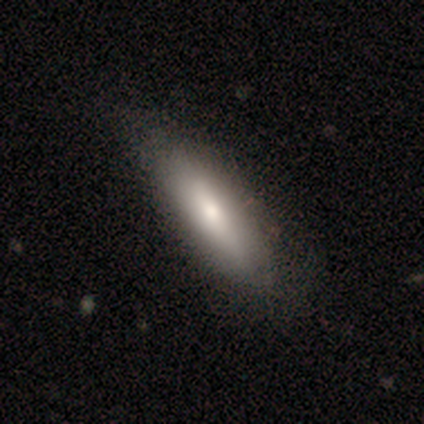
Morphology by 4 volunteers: This is likely a smooth galaxy (75%). How rounded: clearly cigar-shaped (100%). Merging: possibly none (50%, tied with major disturbance).